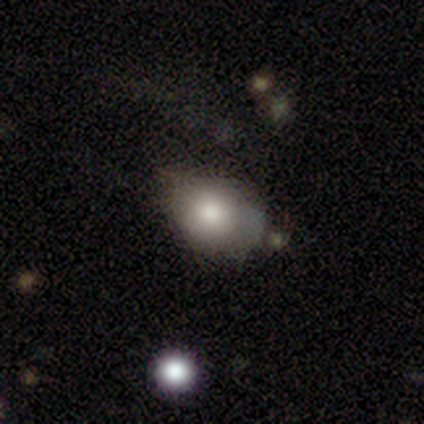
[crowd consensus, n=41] Smooth or featured: smooth — 71% (featured or disk — 20%)
How rounded: in between — 79% (round — 21%)
Merging: minor disturbance — 41% (none — 35%)